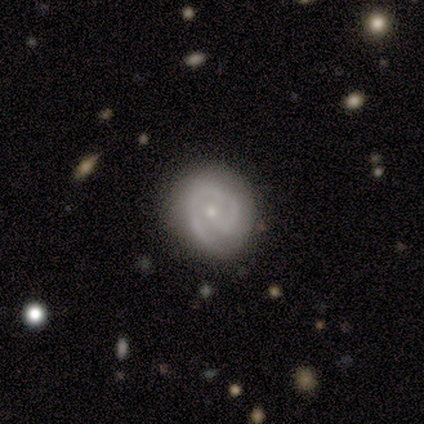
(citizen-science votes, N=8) Volunteers were most divided on "spiral arm count": 1: 40%, 2: 20%, 3: 20%, can't tell: 20%, 4: 0%, more than 4: 0%. More confident: edge-on disk — no (100%); bar — no (83%); spiral arms — yes (83%); bulge size — small (83%); spiral winding — tight (80%); smooth or featured — featured or disk (75%); merging — none (75%).